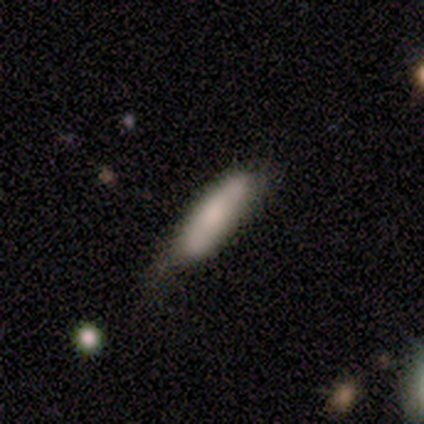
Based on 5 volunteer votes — This appears to be a smooth galaxy with no disk features (100%) that is cigar-shaped (80%). Merging: minor disturbance (60%).